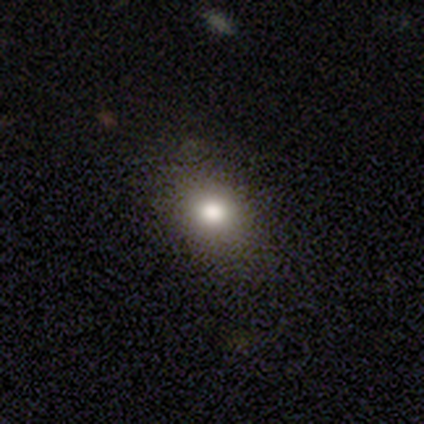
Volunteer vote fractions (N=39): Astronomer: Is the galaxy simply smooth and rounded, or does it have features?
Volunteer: smooth — 79%.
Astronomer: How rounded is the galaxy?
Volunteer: in between — 52% (runner-up: round, 48%).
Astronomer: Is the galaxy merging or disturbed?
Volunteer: none — 91%.